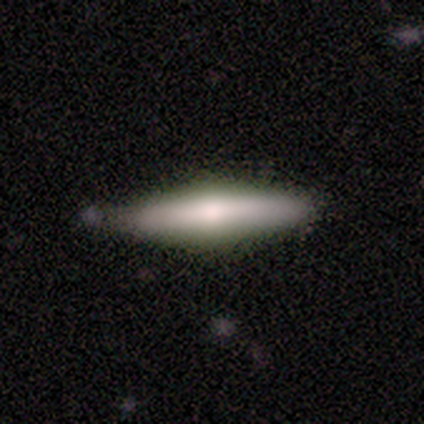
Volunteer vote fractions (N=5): This is likely a smooth galaxy (60%). How rounded: clearly cigar-shaped (100%). Merging: likely none (60%).